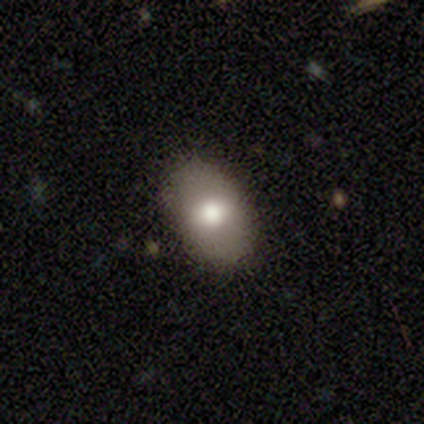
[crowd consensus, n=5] Overall: smooth (100%). How rounded: in between (100%). Merging: none (100%).